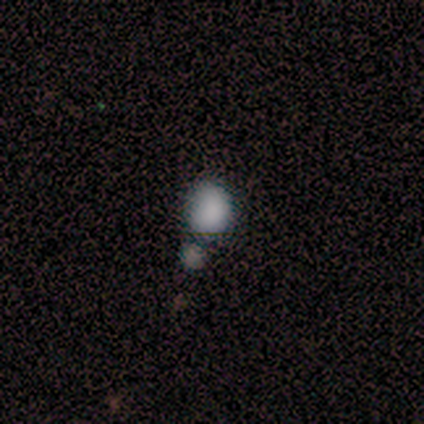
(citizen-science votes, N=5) smooth-or-featured: smooth: 100% | featured or disk: 0% | star or artifact: 0%
  how-rounded: round: 80% | in between: 20% | cigar-shaped: 0%
  merging: none: 40% (tied) | major disturbance: 40% (tied) | merger: 20% | minor disturbance: 0%